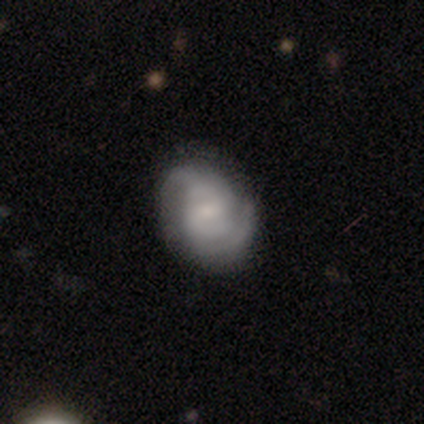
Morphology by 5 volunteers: Smooth or featured?
  - featured or disk: 80% *
  - smooth: 20%
  - star or artifact: 0%
Edge-on disk?
  - no: 100% *
  - yes: 0%
Bar?
  - no: 75% *
  - weak: 25%
  - strong: 0%
Spiral arms?
  - yes: 100% *
  - no: 0%
Spiral winding?
  - medium: 50% *
  - tight: 25%
  - loose: 25%
Spiral arm count?
  - 2: 50% * (tied)
  - can't tell: 50% * (tied)
  - 1: 0%
  - 3: 0%
  - 4: 0%
  - more than 4: 0%
Bulge size?
  - moderate: 50% * (tied)
  - small: 50% * (tied)
  - dominant: 0%
  - large: 0%
  - none: 0%
Merging?
  - minor disturbance: 60% *
  - none: 40%
  - major disturbance: 0%
  - merger: 0%